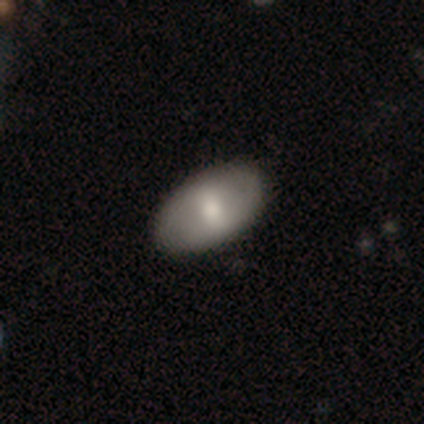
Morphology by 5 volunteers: Overall: featured or disk (60%; smooth 20%). Edge-on disk: no (100%). Bar: weak (67%; no 33%). Spiral arms: no (100%). Bulge size: moderate (67%; none 33%). Merging: none (100%).